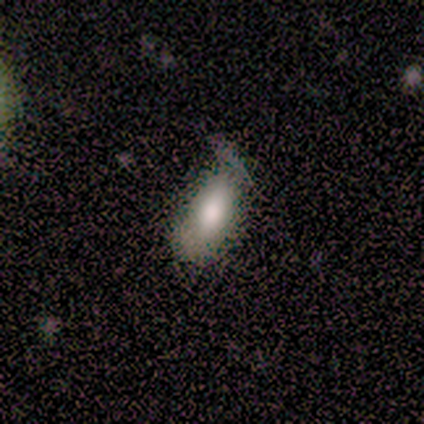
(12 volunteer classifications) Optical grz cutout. It shows a smooth galaxy with no disk features (75%) that is in between round and cigar-shaped (100%). Merging: minor disturbance (55%).